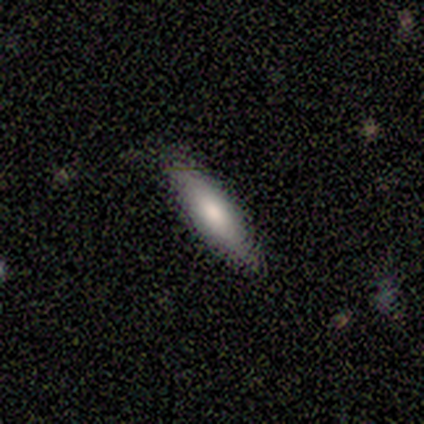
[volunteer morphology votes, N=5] Smooth or featured?
  - smooth: 40% * (tied)
  - featured or disk: 40% * (tied)
  - star or artifact: 20%
How rounded?
  - cigar-shaped: 100% *
  - round: 0%
  - in between: 0%
Merging?
  - none: 100% *
  - minor disturbance: 0%
  - major disturbance: 0%
  - merger: 0%